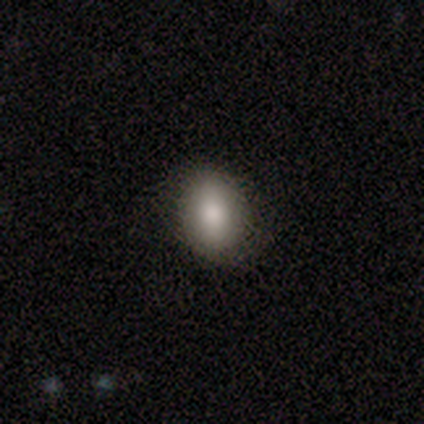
A smooth galaxy with no disk features (50%, tied with featured or disk) that is in between round and cigar-shaped (100%).

Vote fractions:
- Smooth or featured? smooth: 50% (tied) / featured or disk: 50% (tied) / star or artifact: 0%
- How rounded? in between: 100% / round: 0% / cigar-shaped: 0%
- Merging? none: 50% (tied) / minor disturbance: 50% (tied) / major disturbance: 0% / merger: 0%